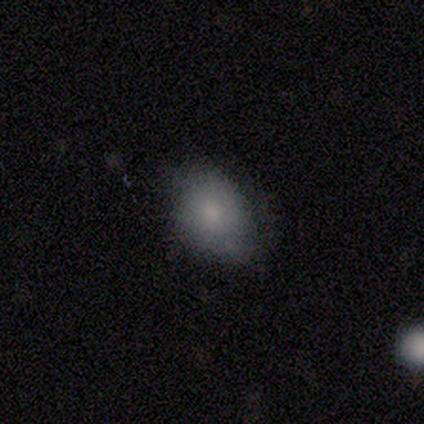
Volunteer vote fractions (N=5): Smooth or featured: smooth — 100%
How rounded: in between — 80% (round — 20%)
Merging: minor disturbance — 60% (none — 40%)